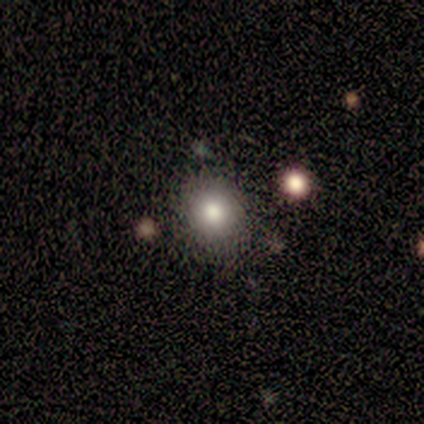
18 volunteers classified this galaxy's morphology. This appears to be a smooth galaxy with no disk features (94%) that is round (76%). Merging: none (94%).